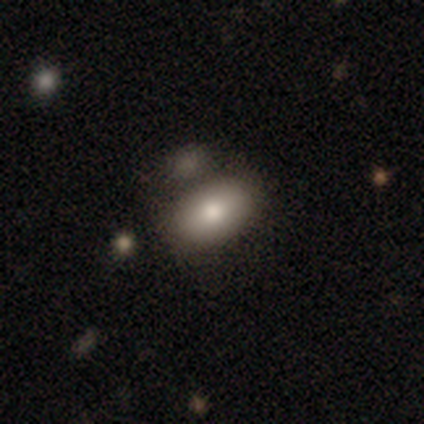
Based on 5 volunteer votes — Q: Smooth or featured?
A: smooth (80%); runner-up: featured or disk (20%)
Q: How rounded?
A: in between (100%)
Q: Merging?
A: none (80%); runner-up: merger (20%)